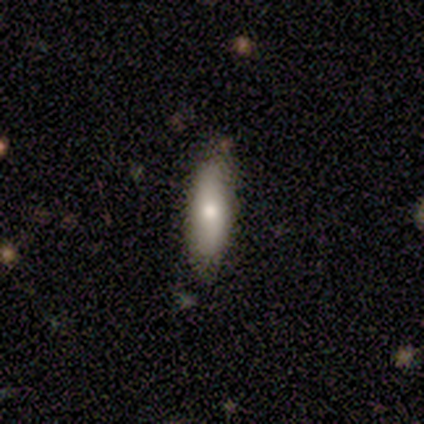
Smooth or featured? smooth (80%)
How rounded? in between (50%, tied with cigar-shaped)
Merging? none (100%)